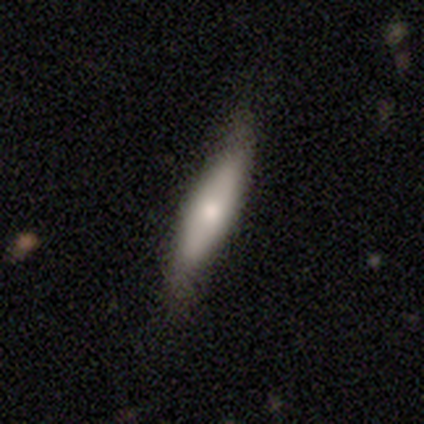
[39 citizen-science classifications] smooth-or-featured: smooth: 67% | featured or disk: 28% | star or artifact: 5%
  how-rounded: cigar-shaped: 77% | in between: 23% | round: 0%
  merging: none: 78% | minor disturbance: 16% | major disturbance: 5% | merger: 0%